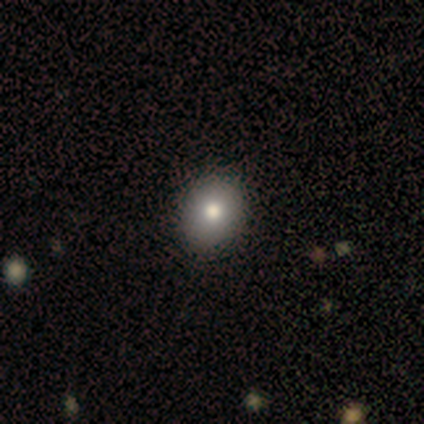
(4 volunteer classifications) smooth_or_featured: smooth (p=1.00)
how_rounded: round (p=0.75) [alt: in between p=0.25]
merging: none (p=1.00)